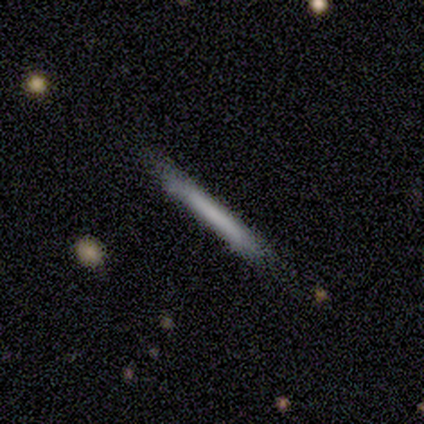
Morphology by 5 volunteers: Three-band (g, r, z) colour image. It shows a smooth galaxy with no disk features (80%) that is cigar-shaped (100%). Merging: none (60%).